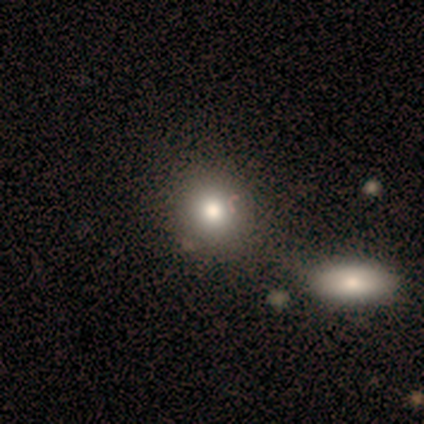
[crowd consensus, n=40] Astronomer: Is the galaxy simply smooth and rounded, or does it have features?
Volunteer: smooth — 90%.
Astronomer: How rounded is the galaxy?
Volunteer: round — 92%.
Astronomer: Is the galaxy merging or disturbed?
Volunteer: none — 43% (runner-up: merger, 30%).